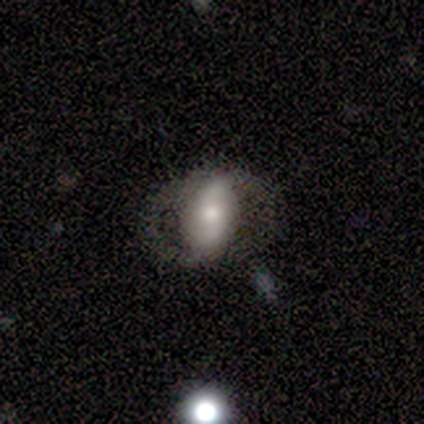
Smooth or featured? 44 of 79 (56%) said featured or disk. Edge-on disk? 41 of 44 (93%) said no. Bar? 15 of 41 (37%) said strong. Spiral arms? 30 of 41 (73%) said yes. Spiral winding? 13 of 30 (43%, tied with loose) said medium. Spiral arm count? 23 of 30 (77%) said 2. Bulge size? 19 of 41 (46%) said moderate. Merging? 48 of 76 (63%) said none.